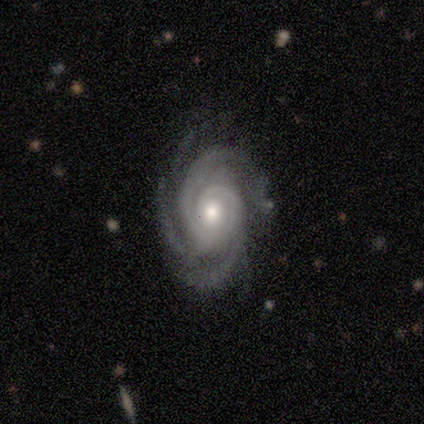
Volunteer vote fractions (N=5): Volunteers were most divided on "bar": no: 60%, weak: 40%, strong: 0%. More confident: smooth or featured — featured or disk (100%); edge-on disk — no (100%); spiral arms — yes (100%); merging — none (100%); spiral winding — tight (60%); spiral arm count — 3 (60%); bulge size — moderate (60%).